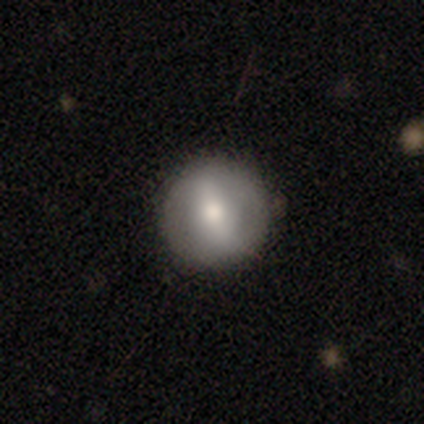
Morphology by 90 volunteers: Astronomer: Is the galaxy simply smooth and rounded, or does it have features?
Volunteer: smooth — 54% (runner-up: featured or disk, 39%).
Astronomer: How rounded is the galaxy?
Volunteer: round — 92%.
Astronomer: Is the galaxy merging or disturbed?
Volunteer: none — 88%.